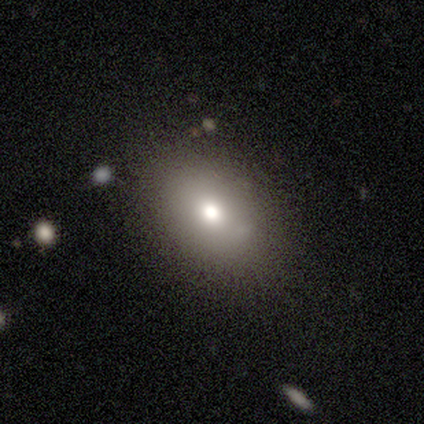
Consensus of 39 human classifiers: Smooth or featured? 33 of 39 (85%) said smooth. How rounded? 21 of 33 (64%) said in between. Merging? 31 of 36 (86%) said none.